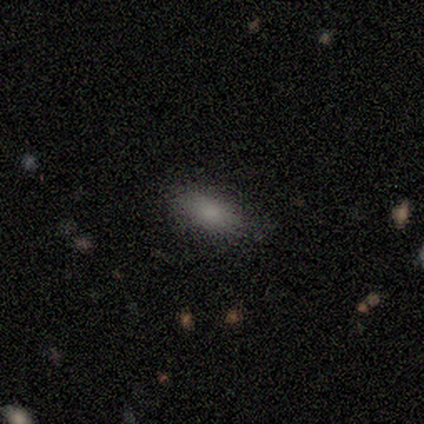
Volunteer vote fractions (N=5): This appears to be a smooth galaxy with no disk features (100%) that is in between round and cigar-shaped (80%). Merging: none (100%).